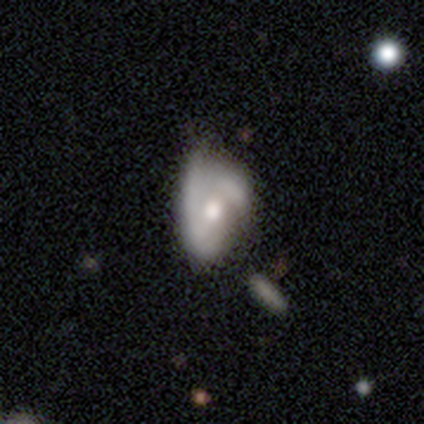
featured or disk 70%, smooth 19%, star or artifact 11%. Down the decision tree: edge-on disk — no (96%); bar — no (68%); spiral arms — yes (76%); spiral arm count — 2 (68%); spiral winding — tight (42%); bulge size — moderate (64%); merging — minor disturbance (33%).